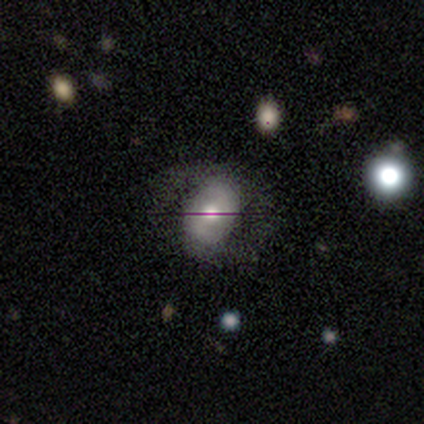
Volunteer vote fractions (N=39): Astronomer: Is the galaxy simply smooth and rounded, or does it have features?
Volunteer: smooth — 44% (runner-up: featured or disk, 36%).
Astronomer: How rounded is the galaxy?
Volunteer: in between — 88%.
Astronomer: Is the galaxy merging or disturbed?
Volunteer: none — 52%.